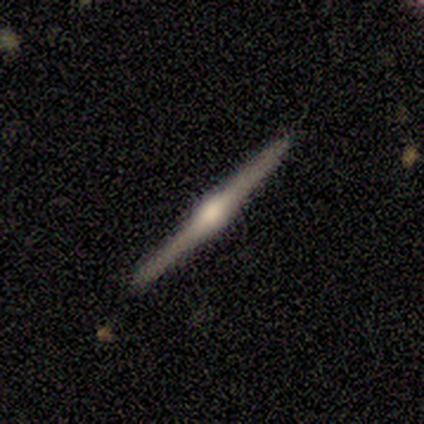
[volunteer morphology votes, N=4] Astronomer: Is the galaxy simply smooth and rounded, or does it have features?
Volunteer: featured or disk — 100%.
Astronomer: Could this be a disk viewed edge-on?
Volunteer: yes — 100%.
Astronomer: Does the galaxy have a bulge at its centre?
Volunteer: rounded — 100%.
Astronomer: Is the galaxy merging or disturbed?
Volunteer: none — 100%.